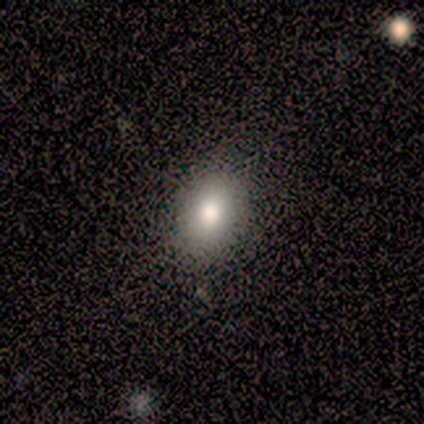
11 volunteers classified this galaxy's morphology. smooth_or_featured: smooth (p=0.73) [alt: star or artifact p=0.27]
how_rounded: in between (p=1.00)
merging: none (p=1.00)